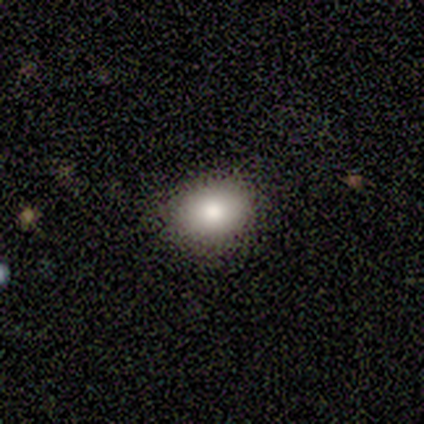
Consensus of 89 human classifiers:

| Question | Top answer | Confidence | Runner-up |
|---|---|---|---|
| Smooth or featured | smooth | 81% | featured or disk (12%) |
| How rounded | in between | 61% | round (38%) |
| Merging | none | 86% | minor disturbance (12%) |